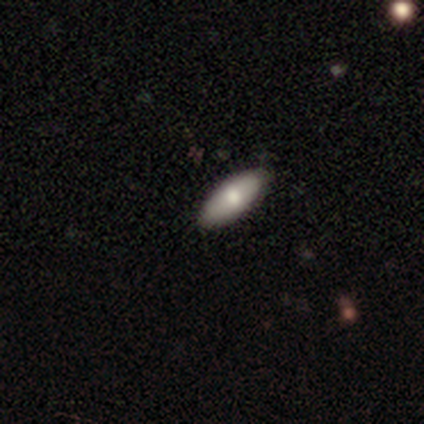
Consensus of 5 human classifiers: Smooth or featured: featured or disk — 40% (tied with star or artifact — 40%)
Edge-on disk: no — 100%
Bar: strong — 50% (tied with no — 50%)
Spiral arms: no — 100%
Bulge size: moderate — 100%
Merging: none — 100%